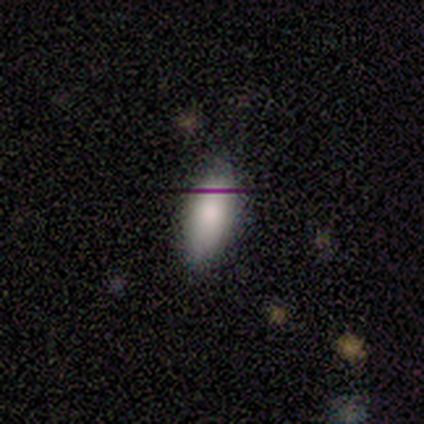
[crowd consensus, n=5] Smooth or featured: smooth — 80% (star or artifact — 20%)
How rounded: in between — 75% (round — 25%)
Merging: none — 100%